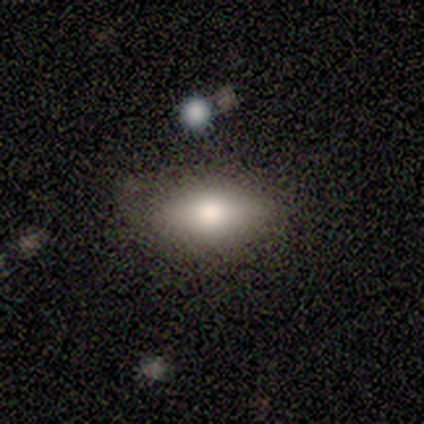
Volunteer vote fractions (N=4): Volunteers were most divided on "how rounded": in between: 75%, round: 25%, cigar-shaped: 0%. More confident: smooth or featured — smooth (100%); merging — none (100%).